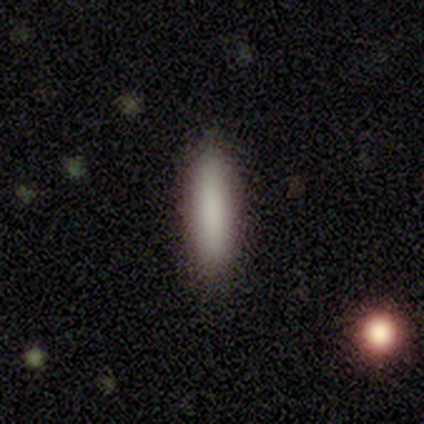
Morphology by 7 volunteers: A smooth galaxy with no disk features (100%) that is cigar-shaped (100%).

Vote fractions:
- Smooth or featured? smooth: 100% / featured or disk: 0% / star or artifact: 0%
- How rounded? cigar-shaped: 100% / round: 0% / in between: 0%
- Merging? none: 86% / minor disturbance: 14% / major disturbance: 0% / merger: 0%